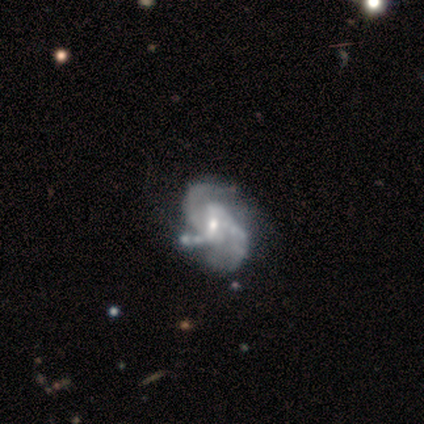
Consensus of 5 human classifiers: A featured or disk galaxy (100%) with a weak bar (60%), 2 (60%) medium (60%) spiral arms (100%) and a moderate central bulge (40%, tied with small).

Vote fractions:
- Smooth or featured? featured or disk: 100% / smooth: 0% / star or artifact: 0%
- Edge-on disk? no: 100% / yes: 0%
- Bar? weak: 60% / strong: 20% / no: 20%
- Spiral arms? yes: 100% / no: 0%
- Spiral winding? medium: 60% / tight: 20% / loose: 20%
- Spiral arm count? 2: 60% / 3: 40% / 1: 0% / 4: 0% / more than 4: 0% / can't tell: 0%
- Bulge size? moderate: 40% (tied) / small: 40% (tied) / none: 20% / dominant: 0% / large: 0%
- Merging? major disturbance: 40% / none: 20% / minor disturbance: 20% / merger: 20%